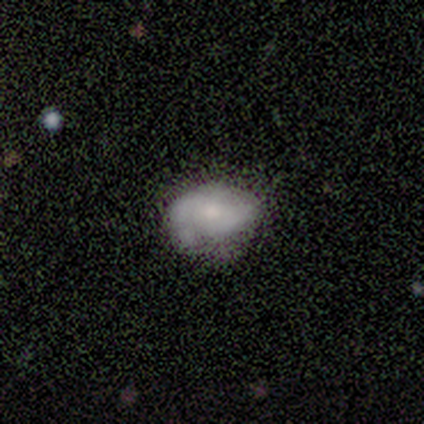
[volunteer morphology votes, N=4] Smooth or featured? 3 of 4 (75%) said smooth. How rounded? 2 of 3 (67%) said in between. Merging? 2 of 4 (50%, tied with minor disturbance) said none.